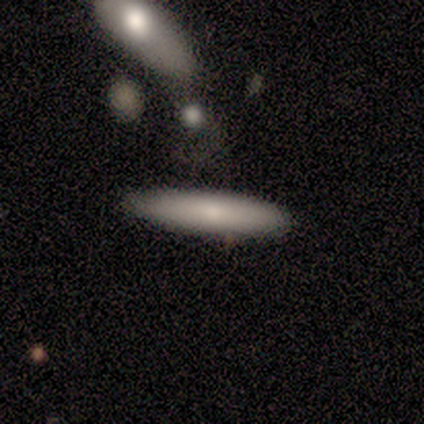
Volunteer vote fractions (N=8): Overall: smooth (62%; star or artifact 25%). How rounded: cigar-shaped (100%). Merging: none (83%).